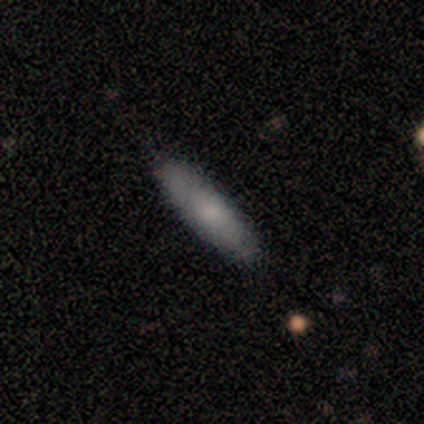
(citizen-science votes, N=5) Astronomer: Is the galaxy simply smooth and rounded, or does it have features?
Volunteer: smooth — 80%.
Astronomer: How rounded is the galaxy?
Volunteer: in between — 50%, tied with cigar-shaped at 50%.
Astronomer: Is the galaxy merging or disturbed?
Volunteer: none — 100%.